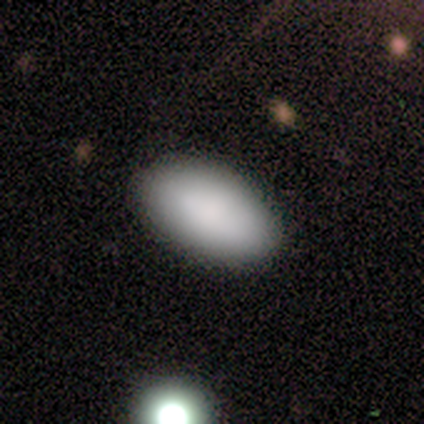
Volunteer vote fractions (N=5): Smooth or featured?
  - smooth: 100% *
  - featured or disk: 0%
  - star or artifact: 0%
How rounded?
  - in between: 100% *
  - round: 0%
  - cigar-shaped: 0%
Merging?
  - none: 80% *
  - minor disturbance: 20%
  - major disturbance: 0%
  - merger: 0%